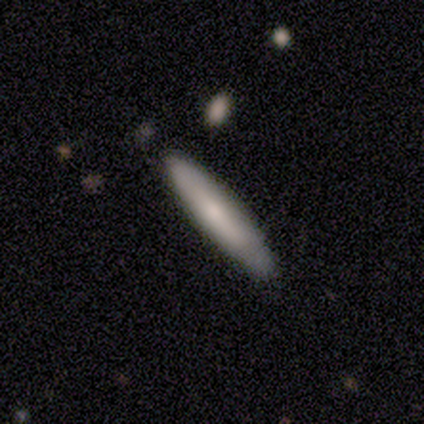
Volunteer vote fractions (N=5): Q: Smooth or featured?
A: smooth (60%); runner-up: featured or disk (20%)
Q: How rounded?
A: cigar-shaped (100%)
Q: Merging?
A: none (50%); runner-up: minor disturbance (25%)